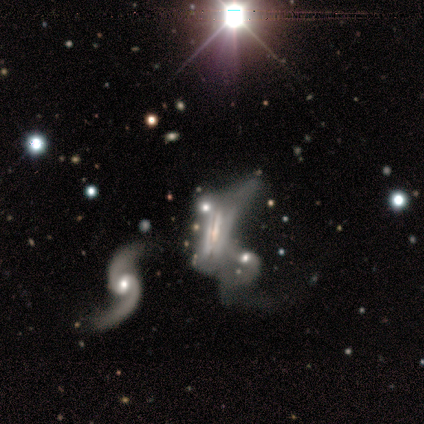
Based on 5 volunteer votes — This appears to be a featured or disk galaxy (100%) with no bar (67%), no spiral arms (67%) and a large central bulge (33%, tied with moderate and small). Merging: major disturbance (60%).